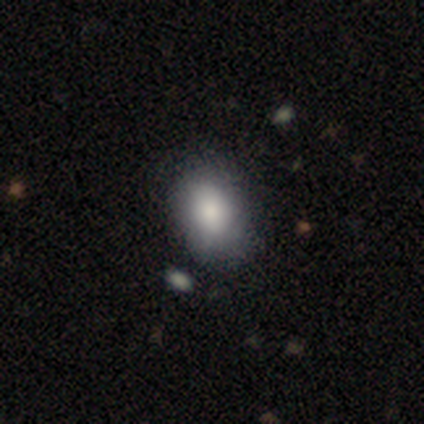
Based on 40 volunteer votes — Smooth or featured: smooth — 90% (featured or disk — 5%)
How rounded: in between — 78% (round — 22%)
Merging: none — 61% (minor disturbance — 8%)